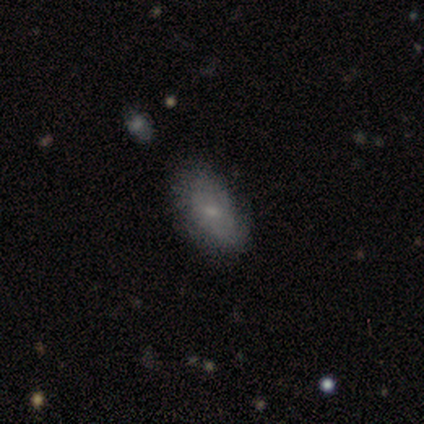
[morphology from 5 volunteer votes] A smooth galaxy with no disk features (60%) that is in between round and cigar-shaped (67%).

Vote fractions:
- Smooth or featured? smooth: 60% / featured or disk: 40% / star or artifact: 0%
- How rounded? in between: 67% / round: 33% / cigar-shaped: 0%
- Merging? none: 80% / minor disturbance: 20% / major disturbance: 0% / merger: 0%